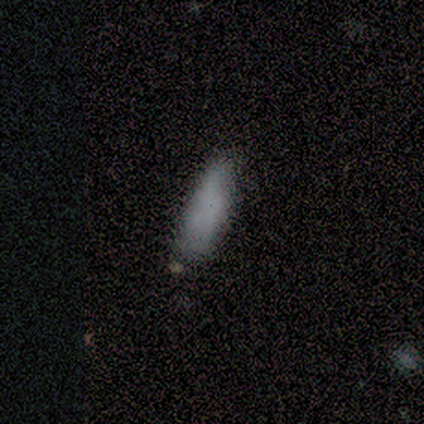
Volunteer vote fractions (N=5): Smooth or featured?
  - smooth: 100% *
  - featured or disk: 0%
  - star or artifact: 0%
How rounded?
  - in between: 60% *
  - cigar-shaped: 40%
  - round: 0%
Merging?
  - none: 60% *
  - minor disturbance: 40%
  - major disturbance: 0%
  - merger: 0%